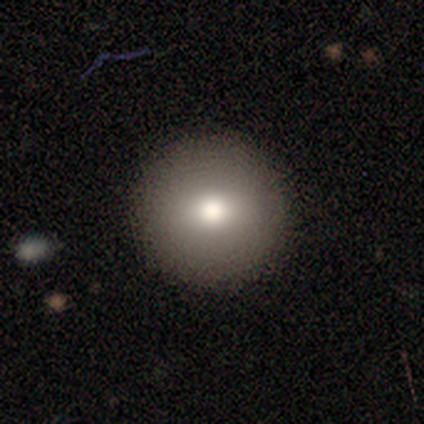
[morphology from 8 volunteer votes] Smooth or featured?
  - smooth: 88% *
  - star or artifact: 12%
  - featured or disk: 0%
How rounded?
  - round: 100% *
  - in between: 0%
  - cigar-shaped: 0%
Merging?
  - none: 100% *
  - minor disturbance: 0%
  - major disturbance: 0%
  - merger: 0%